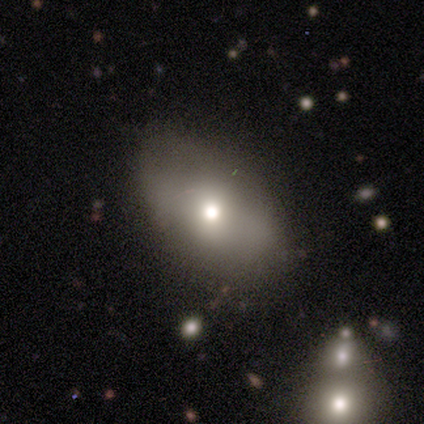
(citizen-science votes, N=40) Smooth or featured?
  - smooth: 62% *
  - featured or disk: 30%
  - star or artifact: 8%
How rounded?
  - in between: 84% *
  - round: 12%
  - cigar-shaped: 4%
Merging?
  - none: 62% *
  - minor disturbance: 30%
  - major disturbance: 8%
  - merger: 0%